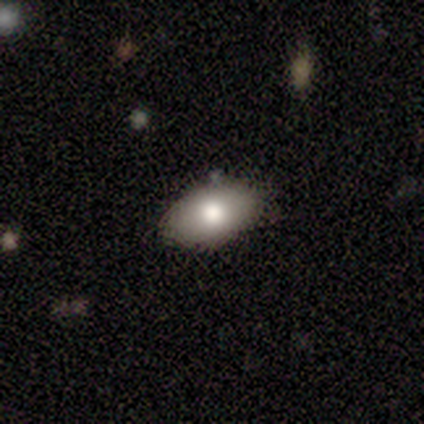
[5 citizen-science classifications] This appears to be a smooth galaxy with no disk features (80%) that is in between round and cigar-shaped (100%). Merging: none (75%).